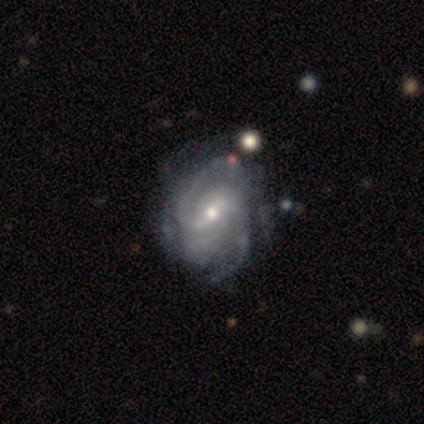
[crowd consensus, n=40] Smooth or featured? featured or disk (95%)
Edge-on disk? no (100%)
Bar? weak (55%)
Spiral arms? yes (95%)
Spiral winding? tight (44%)
Spiral arm count? 2 (44%)
Bulge size? moderate (58%)
Merging? none (49%)